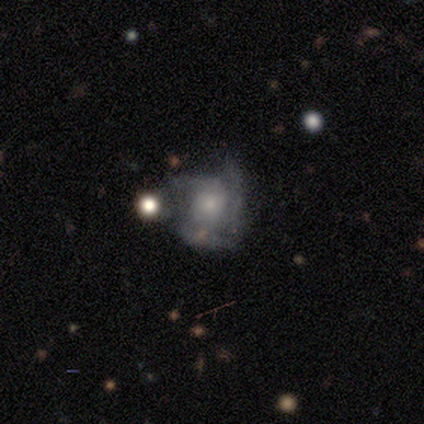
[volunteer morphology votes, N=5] smooth 60%, featured or disk 40%, star or artifact 0%. Down the decision tree: how rounded — round (67%); merging — minor disturbance (60%).